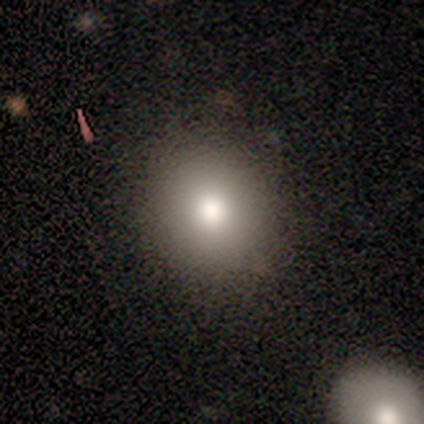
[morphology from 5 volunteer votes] Smooth or featured?
  - smooth: 80% *
  - star or artifact: 20%
  - featured or disk: 0%
How rounded?
  - round: 75% *
  - in between: 25%
  - cigar-shaped: 0%
Merging?
  - none: 100% *
  - minor disturbance: 0%
  - major disturbance: 0%
  - merger: 0%